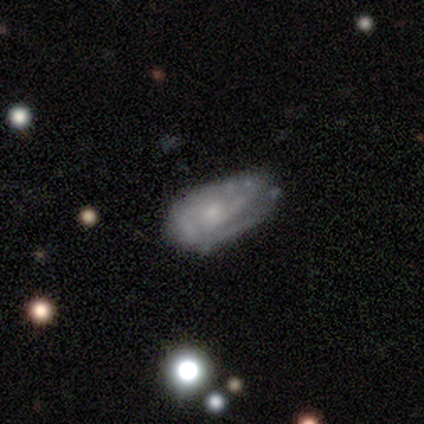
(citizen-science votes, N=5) smooth 60%, featured or disk 40%, star or artifact 0%. Down the decision tree: how rounded — in between (100%); merging — minor disturbance (60%).